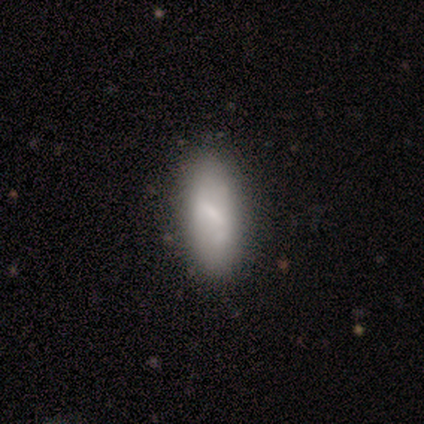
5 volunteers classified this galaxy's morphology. This is likely a smooth galaxy (60%). How rounded: likely in between (67%). Merging: clearly none (80%).